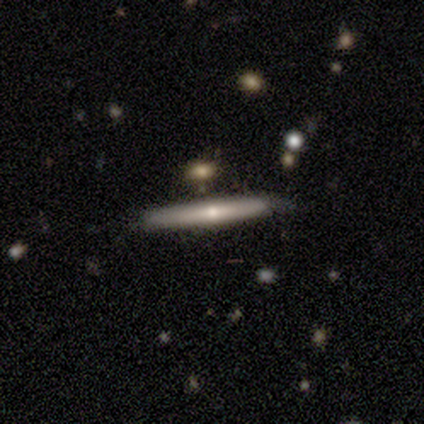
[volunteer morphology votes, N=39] smooth-or-featured: featured or disk: 72% | smooth: 28% | star or artifact: 0%
  disk-edge-on: yes: 93% | no: 7%
    edge-on-bulge: rounded: 62% | none: 38% | boxy: 0%
  merging: none: 74% | minor disturbance: 18% | merger: 8% | major disturbance: 0%